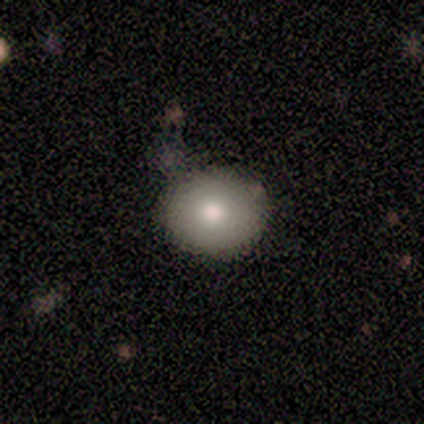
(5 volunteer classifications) Q: Smooth or featured?
A: smooth (100%)
Q: How rounded?
A: round (80%); runner-up: in between (20%)
Q: Merging?
A: none (100%)